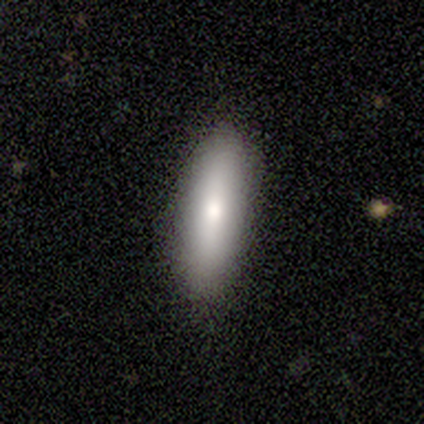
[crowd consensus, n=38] Morphology: type=smooth (82%); roundness=cigar-shaped (55%); merging=none (97%).